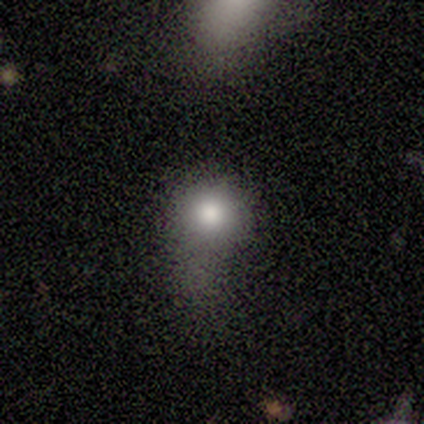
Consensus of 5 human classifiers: smooth 80%, star or artifact 20%, featured or disk 0%. Down the decision tree: how rounded — round (100%); merging — none (50%, tied with major disturbance).